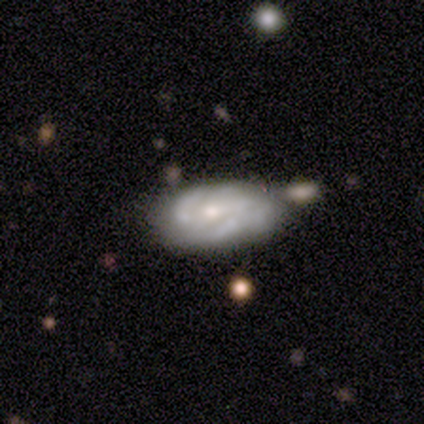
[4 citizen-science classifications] smooth-or-featured: featured or disk: 100% | smooth: 0% | star or artifact: 0%
  disk-edge-on: no: 100% | yes: 0%
    bar: weak: 50% (tied) | no: 50% (tied) | strong: 0%
    has-spiral-arms: yes: 75% | no: 25%
      spiral-winding: tight: 67% | loose: 33% | medium: 0%
      spiral-arm-count: 2: 67% | can't tell: 33% | 1: 0% | 3: 0% | 4: 0% | more than 4: 0%
    bulge-size: small: 75% | moderate: 25% | dominant: 0% | large: 0% | none: 0%
  merging: none: 50% | minor disturbance: 25% | merger: 25% | major disturbance: 0%